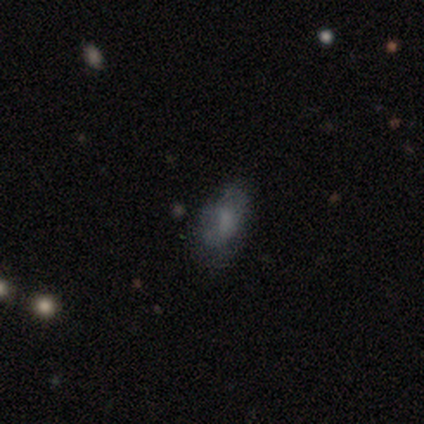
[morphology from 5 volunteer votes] Smooth or featured: smooth — 80% (featured or disk — 20%)
How rounded: in between — 100%
Merging: none — 60% (minor disturbance — 40%)